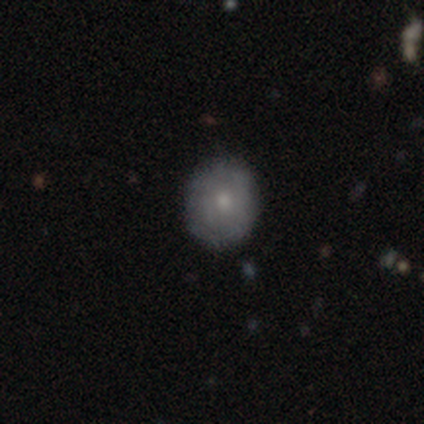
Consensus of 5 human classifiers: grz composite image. It shows a smooth galaxy with no disk features (100%) that is round (80%). Merging: none (80%).